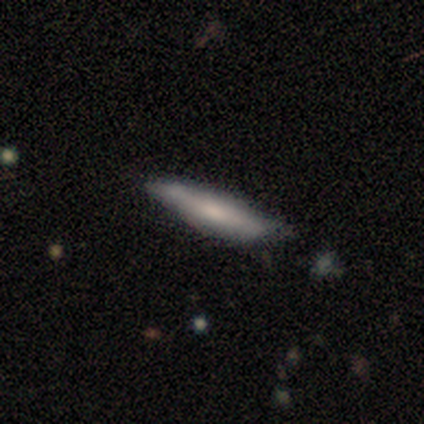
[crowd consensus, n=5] Q: Smooth or featured?
A: smooth (60%); runner-up: featured or disk (20%)
Q: How rounded?
A: cigar-shaped (67%); runner-up: in between (33%)
Q: Merging?
A: minor disturbance (50%); runner-up: none (25%)